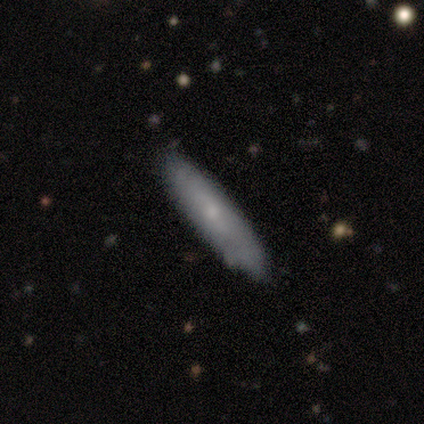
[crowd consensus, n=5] Smooth or featured: smooth — 40% (tied with featured or disk — 40%)
How rounded: in between — 50% (tied with cigar-shaped — 50%)
Merging: none — 100%